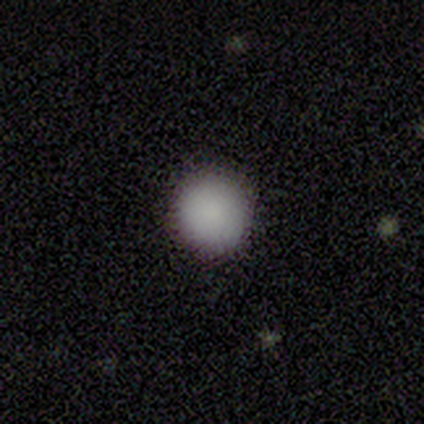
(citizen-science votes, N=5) smooth_or_featured: smooth (p=1.00)
how_rounded: round (p=1.00)
merging: none (p=1.00)